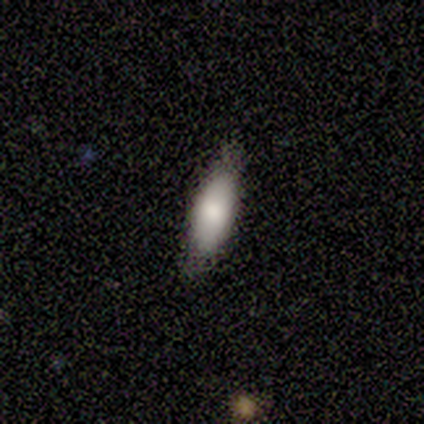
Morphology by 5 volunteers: Smooth or featured? 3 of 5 (60%) said smooth. How rounded? 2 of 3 (67%) said cigar-shaped. Merging? 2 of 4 (50%) said none.